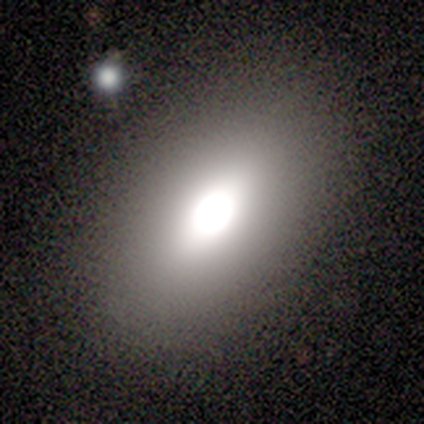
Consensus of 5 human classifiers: smooth_or_featured: smooth (p=0.60) [alt: featured or disk p=0.20]
how_rounded: in between (p=1.00)
merging: none (p=0.50) [alt: minor disturbance p=0.25]